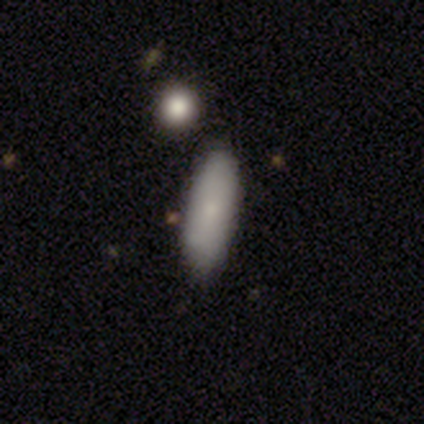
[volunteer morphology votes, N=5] Q: Smooth or featured?
A: smooth (80%); runner-up: star or artifact (20%)
Q: How rounded?
A: in between (50%); tied with: cigar-shaped (50%)
Q: Merging?
A: none (100%)